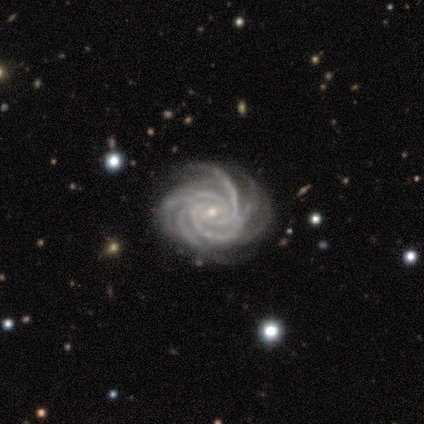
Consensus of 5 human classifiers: This appears to be a featured or disk galaxy (100%) with a weak bar (40%, tied with no), more than 4 (40%) tight (80%) spiral arms (100%) and a small central bulge (100%). Merging: none (60%).